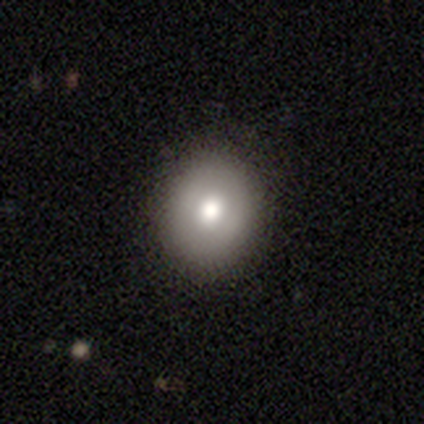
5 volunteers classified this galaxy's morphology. A featured or disk galaxy (60%) with no bar (100%), no spiral arms (100%) and a moderate central bulge (100%).

Vote fractions:
- Smooth or featured? featured or disk: 60% / smooth: 40% / star or artifact: 0%
- Edge-on disk? no: 100% / yes: 0%
- Bar? no: 100% / strong: 0% / weak: 0%
- Spiral arms? no: 100% / yes: 0%
- Bulge size? moderate: 100% / dominant: 0% / large: 0% / small: 0% / none: 0%
- Merging? none: 100% / minor disturbance: 0% / major disturbance: 0% / merger: 0%